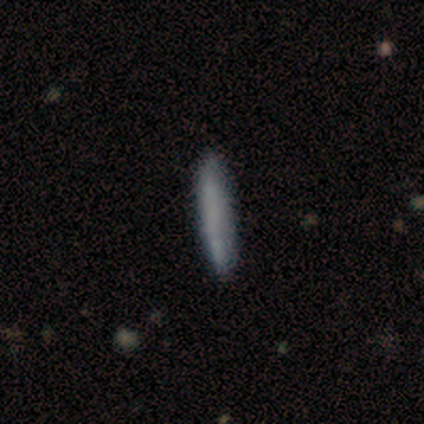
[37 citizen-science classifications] Overall: smooth (65%; featured or disk 27%). How rounded: cigar-shaped (100%). Merging: none (79%).